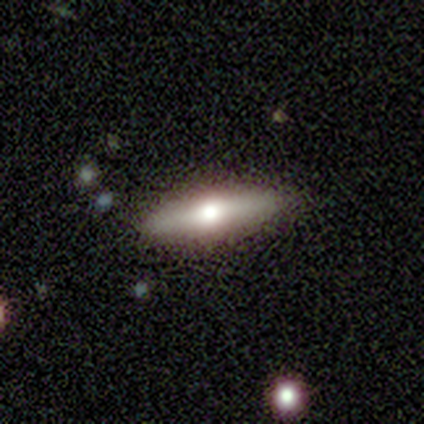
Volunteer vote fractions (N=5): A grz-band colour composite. It shows a smooth galaxy with no disk features (80%) that is cigar-shaped (75%). Merging: none (100%).